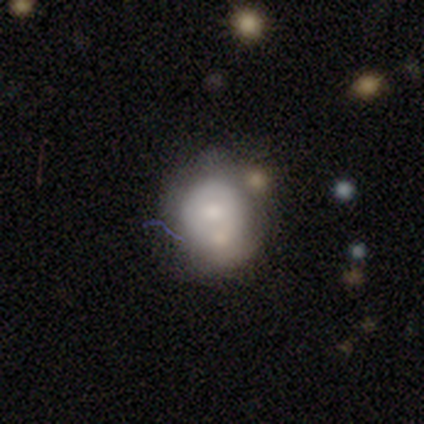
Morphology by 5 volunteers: smooth 40% (tied), featured or disk 40% (tied), star or artifact 20%. Down the decision tree: how rounded — round (50%, tied with in between); merging — none (100%).